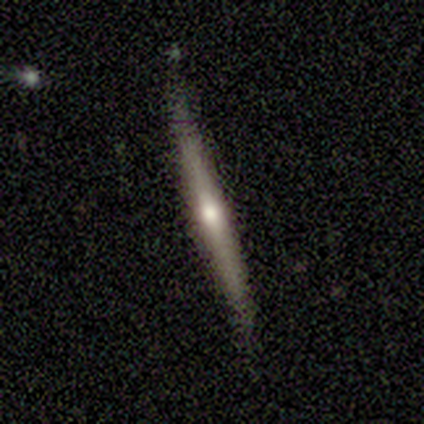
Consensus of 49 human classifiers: Smooth or featured: featured or disk — 84% (smooth — 12%)
Edge-on disk: yes — 98% (no — 2%)
Edge-on bulge: rounded — 62% (none — 28%)
Merging: none — 83% (minor disturbance — 11%)